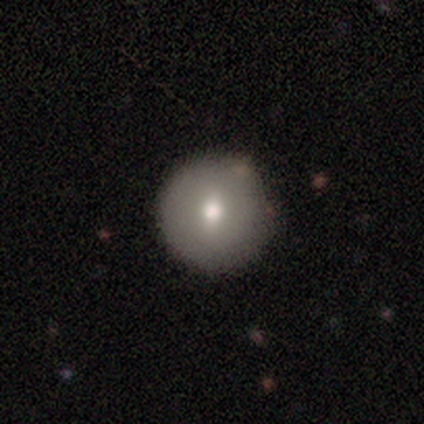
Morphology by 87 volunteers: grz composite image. It shows a smooth galaxy with no disk features (76%) that is round (100%). Merging: none (88%).